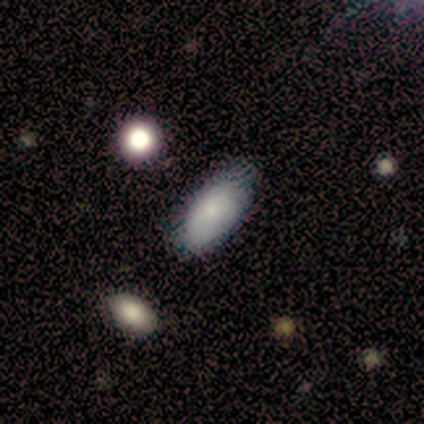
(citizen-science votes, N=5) smooth-or-featured: smooth: 80% | star or artifact: 20% | featured or disk: 0%
  how-rounded: in between: 100% | round: 0% | cigar-shaped: 0%
  merging: none: 100% | minor disturbance: 0% | major disturbance: 0% | merger: 0%